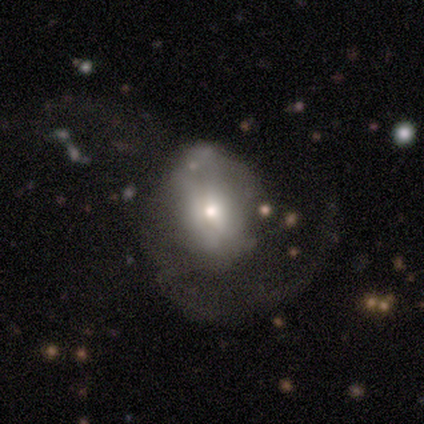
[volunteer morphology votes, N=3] This appears to be a featured or disk galaxy (67%) with no bar (100%), no spiral arms (100%) and a small central bulge (100%). Merging: major disturbance (100%).